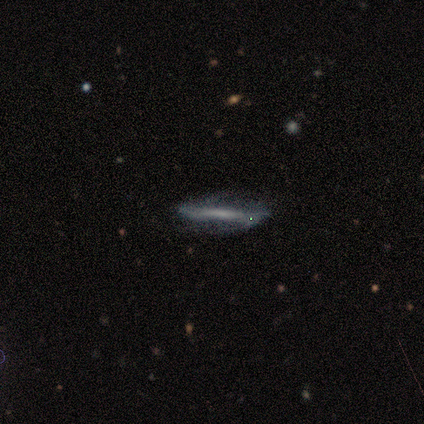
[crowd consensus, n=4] This is possibly a smooth galaxy (50%, tied with featured or disk). How rounded: clearly cigar-shaped (100%). Merging: likely none (75%).